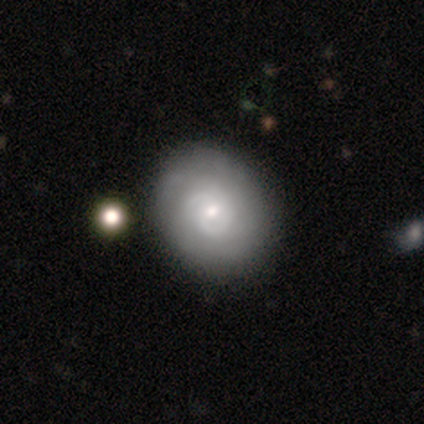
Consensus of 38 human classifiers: featured or disk 58%, smooth 37%, star or artifact 5%. Down the decision tree: edge-on disk — no (100%); bar — no (68%); spiral arms — yes (86%); spiral arm count — can't tell (42%); spiral winding — tight (79%); bulge size — small (64%); merging — none (50%).